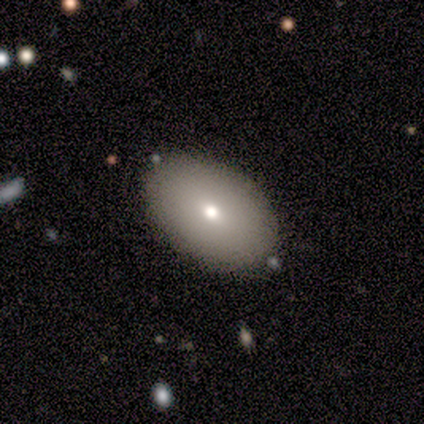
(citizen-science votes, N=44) smooth-or-featured: smooth: 77% | featured or disk: 20% | star or artifact: 2%
  how-rounded: in between: 94% | round: 6% | cigar-shaped: 0%
  merging: none: 81% | minor disturbance: 7% | major disturbance: 7% | merger: 5%